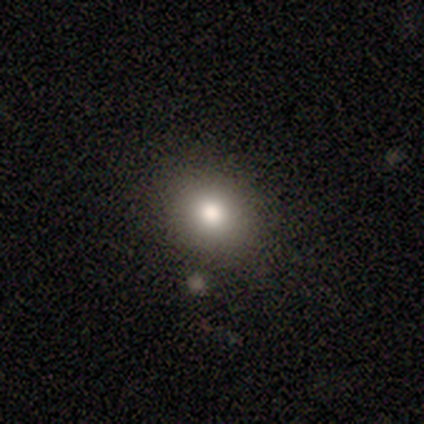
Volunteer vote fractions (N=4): Morphology: type=smooth (75%); roundness=round (67%); merging=none (100%).